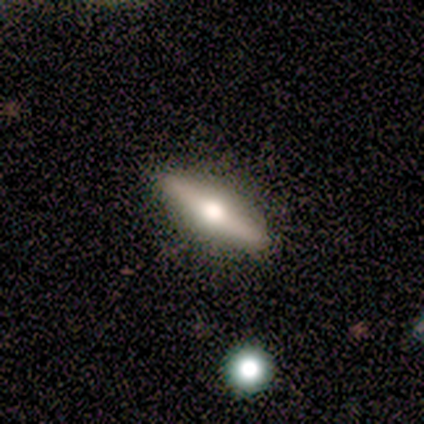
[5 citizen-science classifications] A featured or disk galaxy (80%) viewed edge-on (100%) with a rounded central bulge (75%). Merging: none (50%, tied with minor disturbance).